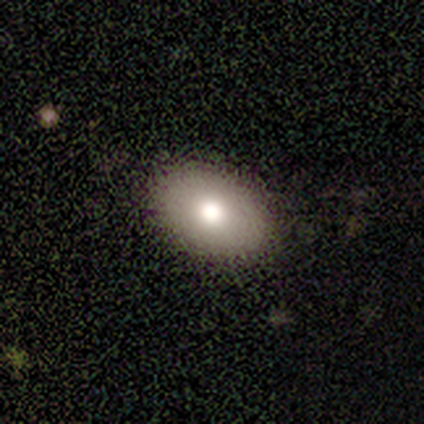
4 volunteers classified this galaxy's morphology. smooth-or-featured: smooth: 100% | featured or disk: 0% | star or artifact: 0%
  how-rounded: in between: 75% | round: 25% | cigar-shaped: 0%
  merging: none: 75% | minor disturbance: 25% | major disturbance: 0% | merger: 0%